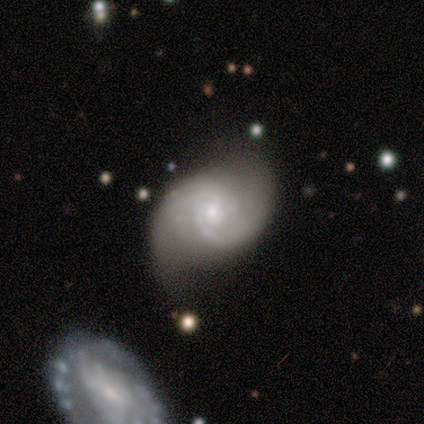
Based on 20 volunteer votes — A featured or disk galaxy (90%) with no bar (78%), 2 (67%) medium (44%) spiral arms (100%) and a small central bulge (78%). Merging: none (53%).